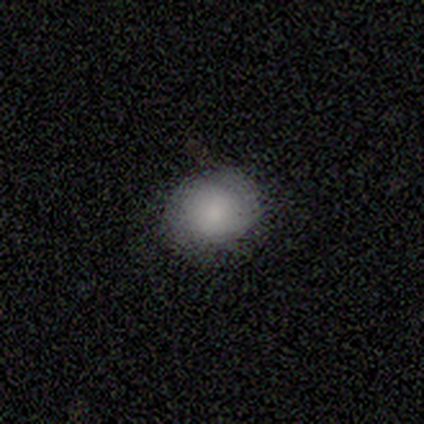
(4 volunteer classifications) smooth-or-featured: smooth: 100% | featured or disk: 0% | star or artifact: 0%
  how-rounded: in between: 75% | round: 25% | cigar-shaped: 0%
  merging: none: 75% | minor disturbance: 25% | major disturbance: 0% | merger: 0%